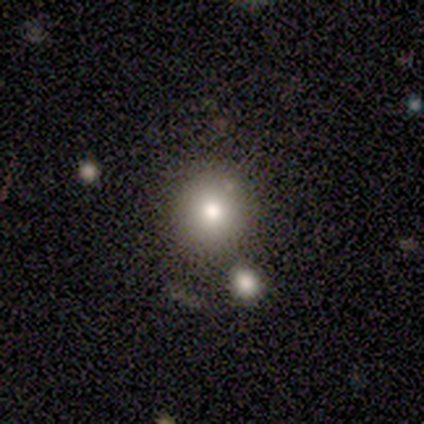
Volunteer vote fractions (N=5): Smooth or featured?
  - smooth: 80% *
  - star or artifact: 20%
  - featured or disk: 0%
How rounded?
  - round: 100% *
  - in between: 0%
  - cigar-shaped: 0%
Merging?
  - none: 100% *
  - minor disturbance: 0%
  - major disturbance: 0%
  - merger: 0%